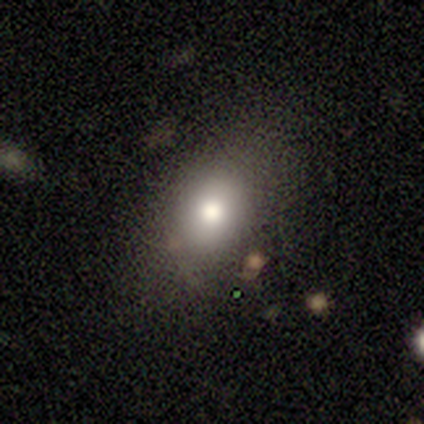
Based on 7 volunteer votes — This is clearly a smooth galaxy (86%). How rounded: likely in between (67%). Merging: clearly none (100%).